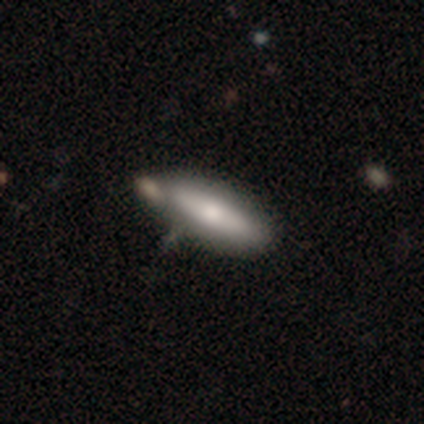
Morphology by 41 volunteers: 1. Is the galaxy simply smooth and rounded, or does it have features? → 59% smooth, 37% featured or disk, 5% star or artifact.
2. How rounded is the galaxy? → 67% in between, 33% cigar-shaped, 0% round.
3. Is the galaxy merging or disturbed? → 46% none, 26% minor disturbance, 23% merger, 5% major disturbance.